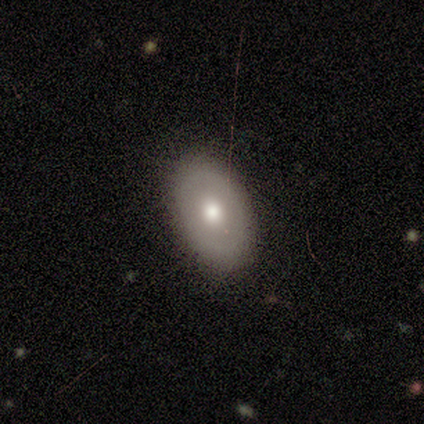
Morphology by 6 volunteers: A smooth galaxy with no disk features (83%) that is in between round and cigar-shaped (100%).

Vote fractions:
- Smooth or featured? smooth: 83% / featured or disk: 17% / star or artifact: 0%
- How rounded? in between: 100% / round: 0% / cigar-shaped: 0%
- Merging? none: 83% / major disturbance: 17% / minor disturbance: 0% / merger: 0%